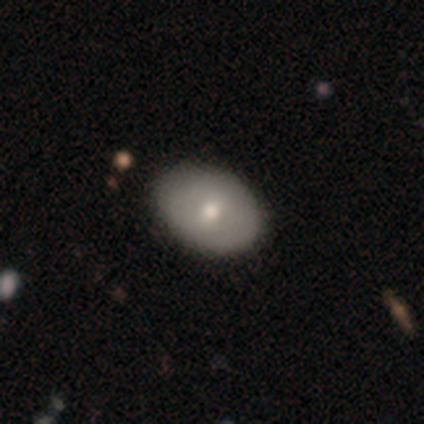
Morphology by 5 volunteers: smooth_or_featured: smooth (p=0.60) [alt: featured or disk p=0.40]
how_rounded: in between (p=0.67) [alt: round p=0.33]
merging: none (p=1.00)